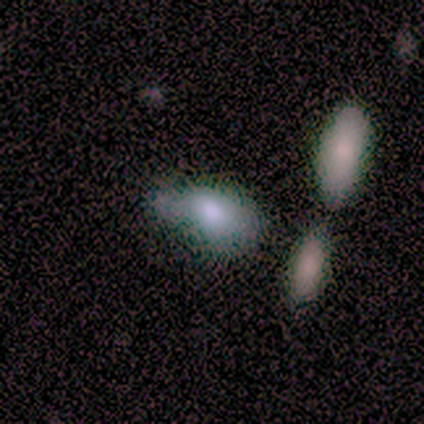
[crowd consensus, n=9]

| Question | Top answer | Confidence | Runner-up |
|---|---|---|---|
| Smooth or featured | smooth | 89% | star or artifact (11%) |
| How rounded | in between | 100% | — |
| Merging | none | 38% | major disturbance (25%) |